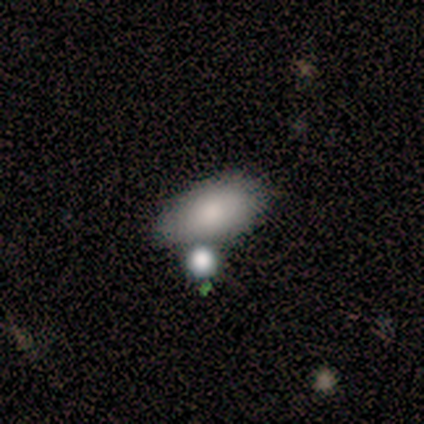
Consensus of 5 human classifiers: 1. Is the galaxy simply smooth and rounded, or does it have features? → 60% smooth, 40% featured or disk, 0% star or artifact.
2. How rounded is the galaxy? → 100% in between, 0% round, 0% cigar-shaped.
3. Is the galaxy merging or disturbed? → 60% merger, 20% none, 20% major disturbance, 0% minor disturbance.